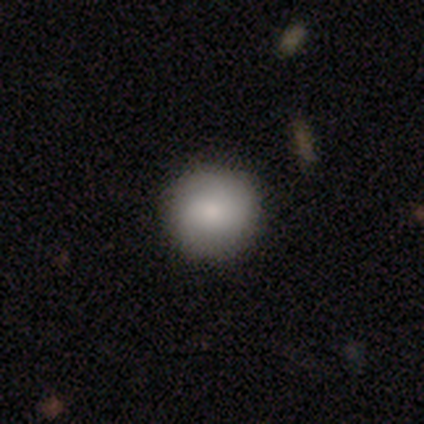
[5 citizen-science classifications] Q: Smooth or featured?
A: smooth (80%); runner-up: star or artifact (20%)
Q: How rounded?
A: round (100%)
Q: Merging?
A: none (100%)